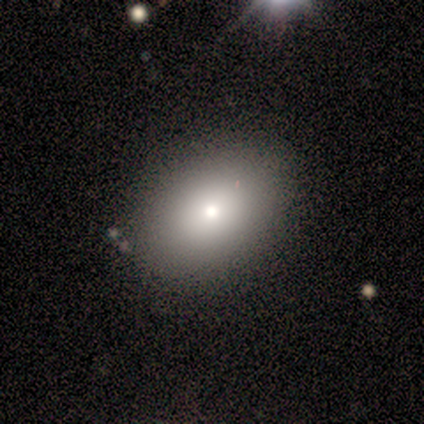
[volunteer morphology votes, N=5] Smooth or featured?
  - smooth: 80% *
  - star or artifact: 20%
  - featured or disk: 0%
How rounded?
  - in between: 100% *
  - round: 0%
  - cigar-shaped: 0%
Merging?
  - none: 100% *
  - minor disturbance: 0%
  - major disturbance: 0%
  - merger: 0%